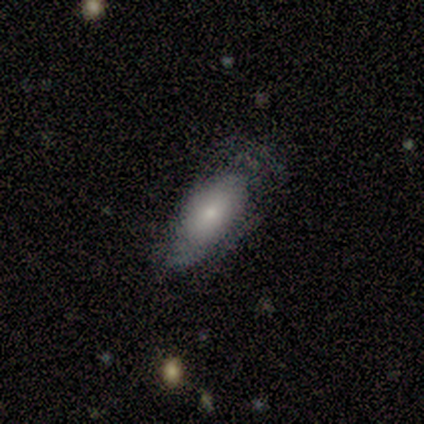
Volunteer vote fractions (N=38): Overall: smooth (58%; featured or disk 37%). How rounded: in between (91%). Merging: none (58%; minor disturbance 25%).